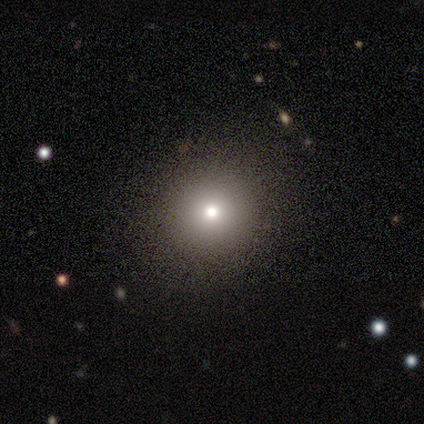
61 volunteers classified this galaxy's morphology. Smooth or featured?
  - smooth: 84% *
  - star or artifact: 11%
  - featured or disk: 5%
How rounded?
  - round: 98% *
  - in between: 2%
  - cigar-shaped: 0%
Merging?
  - none: 65% *
  - minor disturbance: 2%
  - major disturbance: 0%
  - merger: 0%